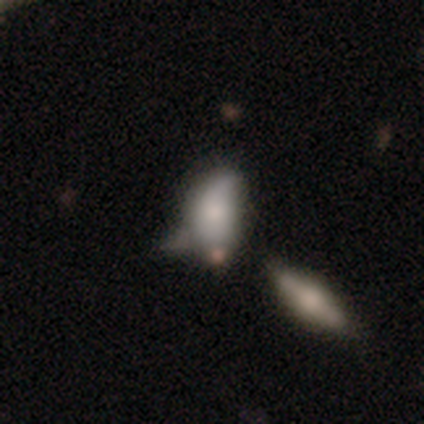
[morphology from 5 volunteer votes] Q: Smooth or featured?
A: smooth (80%); runner-up: featured or disk (20%)
Q: How rounded?
A: in between (100%)
Q: Merging?
A: minor disturbance (60%); runner-up: none (20%)